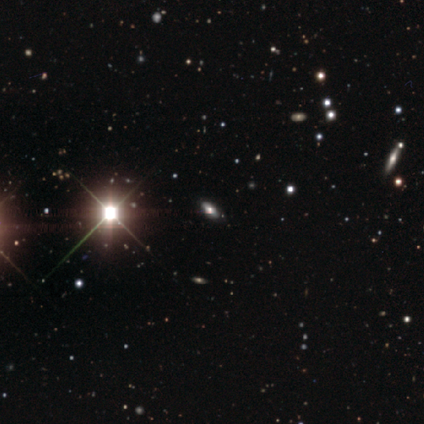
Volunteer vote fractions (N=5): Smooth or featured?
  - star or artifact: 60% *
  - smooth: 40%
  - featured or disk: 0%